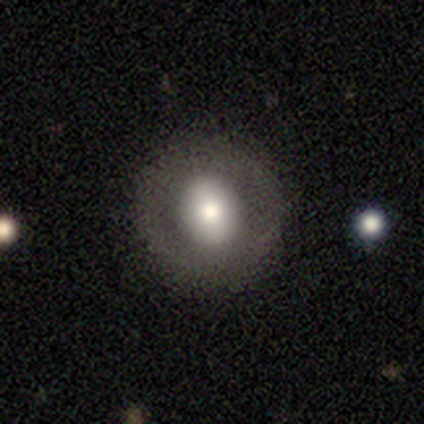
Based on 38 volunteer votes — A smooth galaxy with no disk features (53%) that is round (80%).

Vote fractions:
- Smooth or featured? smooth: 53% / featured or disk: 39% / star or artifact: 8%
- How rounded? round: 80% / in between: 20% / cigar-shaped: 0%
- Merging? none: 91% / minor disturbance: 6% / major disturbance: 3% / merger: 0%